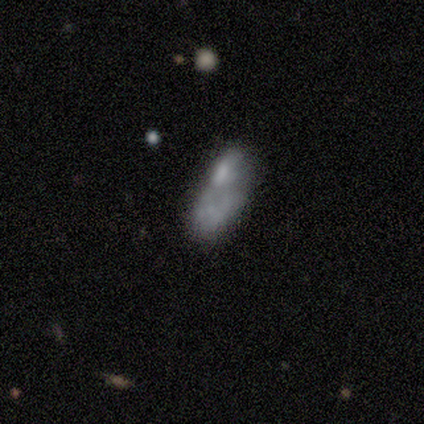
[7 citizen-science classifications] Smooth or featured: smooth — 71% (featured or disk — 29%)
How rounded: in between — 100%
Merging: none — 43% (minor disturbance — 29%)